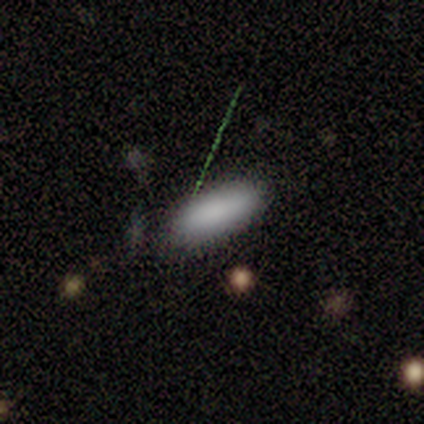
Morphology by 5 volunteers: Volunteers were most divided on "merging": none: 60%, minor disturbance: 40%, major disturbance: 0%, merger: 0%. More confident: smooth or featured — smooth (80%); how rounded — in between (75%).